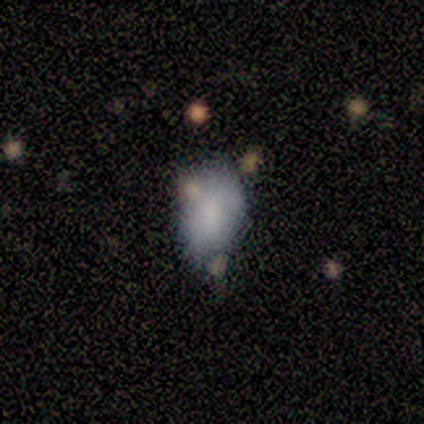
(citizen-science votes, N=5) Volunteers were most divided on "smooth or featured": smooth: 60%, featured or disk: 40%, star or artifact: 0%. More confident: how rounded — in between (100%); merging — minor disturbance (60%).